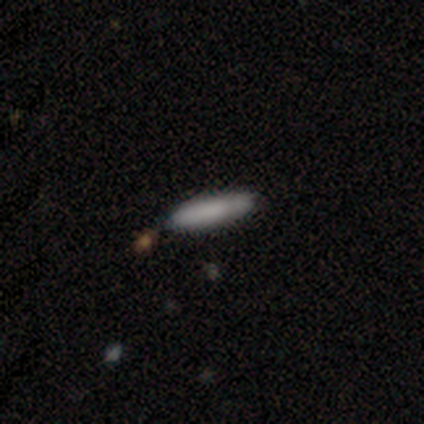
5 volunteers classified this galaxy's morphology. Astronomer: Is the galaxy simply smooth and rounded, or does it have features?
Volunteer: smooth — 80%.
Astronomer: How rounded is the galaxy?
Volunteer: in between — 75%.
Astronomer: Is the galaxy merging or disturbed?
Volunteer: none — 60% (runner-up: merger, 40%).